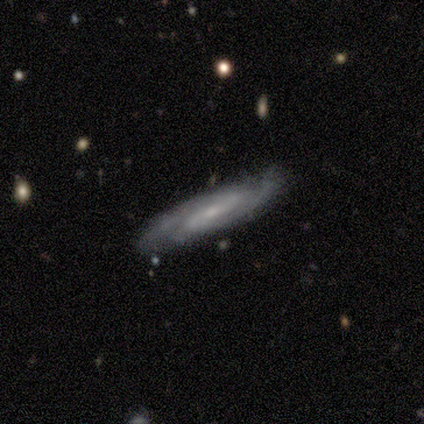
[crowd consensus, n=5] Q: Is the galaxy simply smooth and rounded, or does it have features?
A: featured or disk — 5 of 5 (100%).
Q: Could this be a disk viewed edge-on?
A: no — 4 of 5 (80%).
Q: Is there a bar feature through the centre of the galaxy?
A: weak — 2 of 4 (50%).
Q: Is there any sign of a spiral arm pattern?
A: yes — 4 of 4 (100%).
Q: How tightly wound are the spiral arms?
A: medium — 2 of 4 (50%).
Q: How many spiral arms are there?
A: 2 — 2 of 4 (50%).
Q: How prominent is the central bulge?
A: small — 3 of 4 (75%).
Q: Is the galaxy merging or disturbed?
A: none — 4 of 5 (80%).